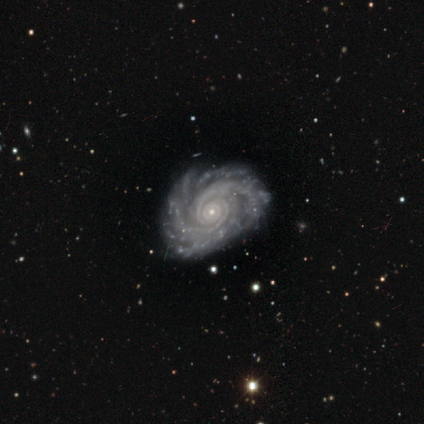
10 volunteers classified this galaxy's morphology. A featured or disk galaxy (100%) with no bar (80%), 2 (40%) tight (60%) spiral arms (100%) and a small central bulge (100%).

Vote fractions:
- Smooth or featured? featured or disk: 100% / smooth: 0% / star or artifact: 0%
- Edge-on disk? no: 100% / yes: 0%
- Bar? no: 80% / strong: 20% / weak: 0%
- Spiral arms? yes: 100% / no: 0%
- Spiral winding? tight: 60% / medium: 40% / loose: 0%
- Spiral arm count? 2: 40% / 4: 20% / more than 4: 20% / can't tell: 20% / 1: 0% / 3: 0%
- Bulge size? small: 100% / dominant: 0% / large: 0% / moderate: 0% / none: 0%
- Merging? none: 70% / minor disturbance: 30% / major disturbance: 0% / merger: 0%